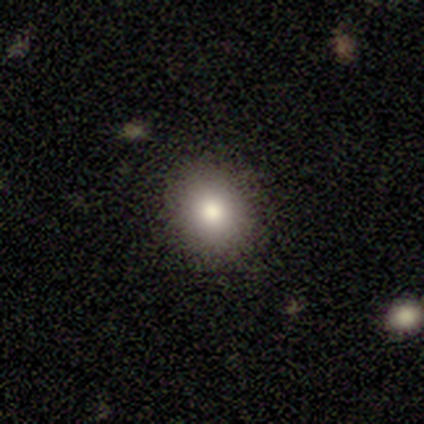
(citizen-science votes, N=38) Smooth or featured?
  - smooth: 63% *
  - featured or disk: 18%
  - star or artifact: 18%
How rounded?
  - round: 62% *
  - in between: 33%
  - cigar-shaped: 4%
Merging?
  - none: 90% *
  - minor disturbance: 10%
  - major disturbance: 0%
  - merger: 0%